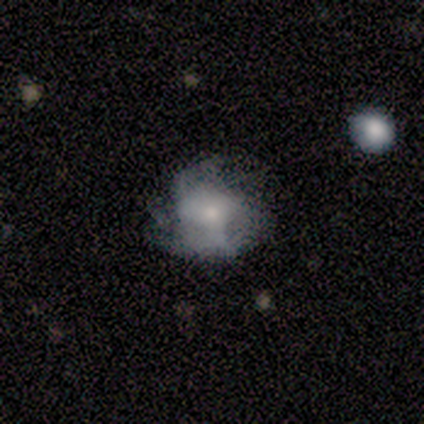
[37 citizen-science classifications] This is likely a featured or disk galaxy (70%). It is clearly not viewed edge-on (96%). Bar: clearly no (80%). Spiral arm pattern: likely yes (64%). Spiral arm count: possibly can't tell (56%). Spiral winding: marginally loose (44%). Central bulge: possibly small (48%). Merging: possibly none (47%).